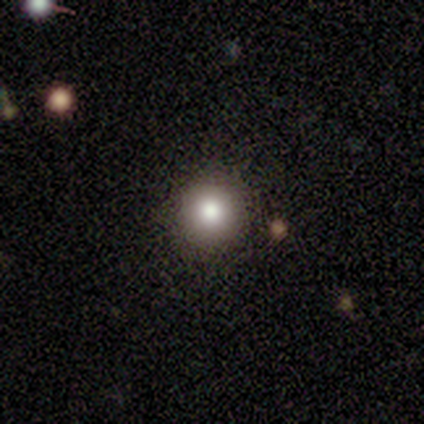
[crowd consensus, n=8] smooth_or_featured: smooth (p=0.62) [alt: star or artifact p=0.38]
how_rounded: round (p=0.60) [alt: in between p=0.40]
merging: none (p=0.80) [alt: minor disturbance p=0.20]